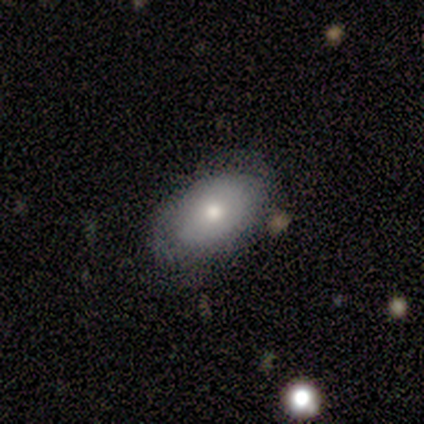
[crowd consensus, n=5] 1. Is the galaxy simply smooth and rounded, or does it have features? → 80% smooth, 20% star or artifact, 0% featured or disk.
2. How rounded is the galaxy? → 100% in between, 0% round, 0% cigar-shaped.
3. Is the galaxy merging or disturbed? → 100% none, 0% minor disturbance, 0% major disturbance, 0% merger.